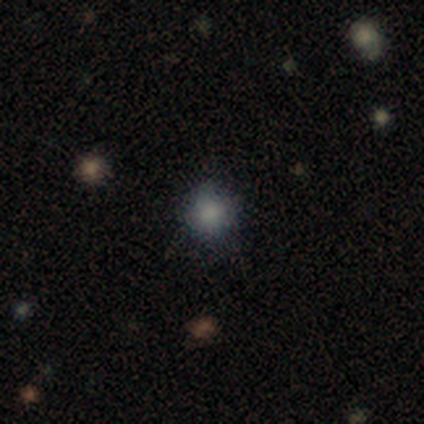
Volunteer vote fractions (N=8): smooth_or_featured: smooth (p=0.62) [alt: star or artifact p=0.25]
how_rounded: round (p=1.00)
merging: none (p=0.67) [alt: minor disturbance p=0.17]